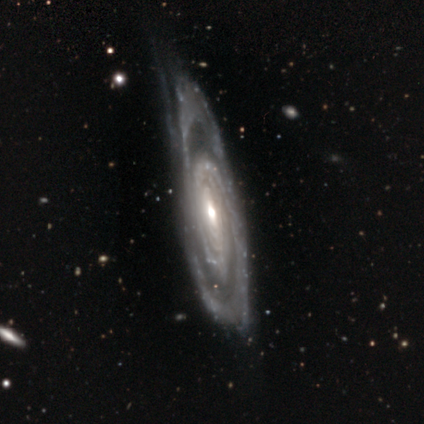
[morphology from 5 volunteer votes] featured or disk 100%, smooth 0%, star or artifact 0%. Down the decision tree: edge-on disk — no (100%); bar — no (60%); spiral arms — yes (60%); spiral arm count — 2 (33%, tied with 3 and 4); spiral winding — tight (67%); bulge size — small (60%); merging — none (60%).